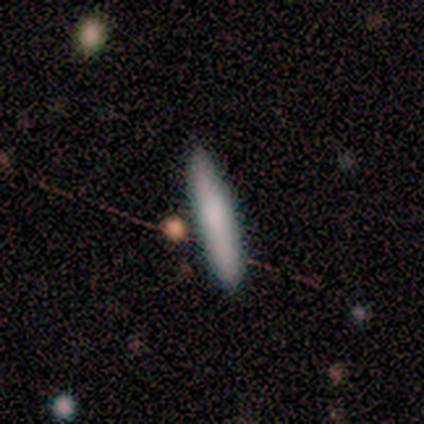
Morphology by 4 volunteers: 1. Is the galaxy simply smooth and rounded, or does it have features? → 50% smooth (tied), 50% featured or disk (tied), 0% star or artifact.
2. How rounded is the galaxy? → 100% cigar-shaped, 0% round, 0% in between.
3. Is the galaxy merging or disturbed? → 100% none, 0% minor disturbance, 0% major disturbance, 0% merger.